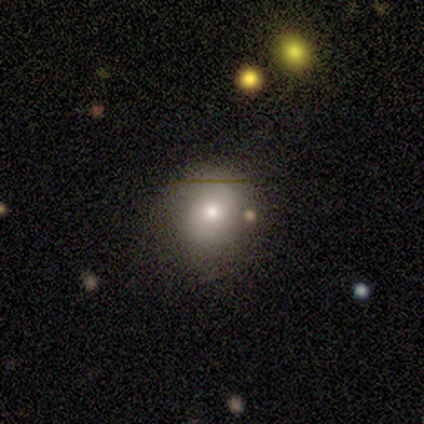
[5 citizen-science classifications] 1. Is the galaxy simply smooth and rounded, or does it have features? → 60% smooth, 20% featured or disk, 20% star or artifact.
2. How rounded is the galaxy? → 67% round, 33% in between, 0% cigar-shaped.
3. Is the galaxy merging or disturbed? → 50% none (tied), 50% minor disturbance (tied), 0% major disturbance, 0% merger.